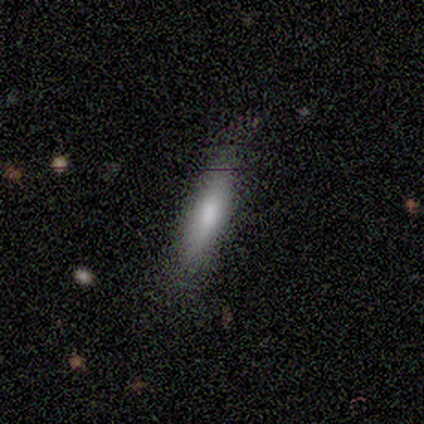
Smooth or featured?
  - smooth: 80% *
  - featured or disk: 20%
  - star or artifact: 0%
How rounded?
  - cigar-shaped: 75% *
  - in between: 25%
  - round: 0%
Merging?
  - none: 80% *
  - minor disturbance: 20%
  - major disturbance: 0%
  - merger: 0%